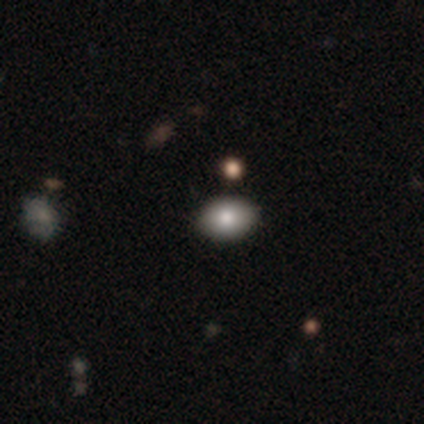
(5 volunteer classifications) This appears to be a smooth galaxy with no disk features (100%) that is in between round and cigar-shaped (100%). Merging: none (100%).